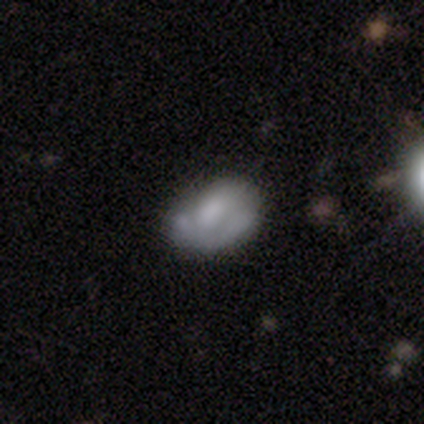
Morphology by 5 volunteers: smooth_or_featured: smooth (p=0.40) [tied with: featured or disk p=0.40]
how_rounded: in between (p=1.00)
merging: none (p=0.50) [tied with: major disturbance p=0.50]